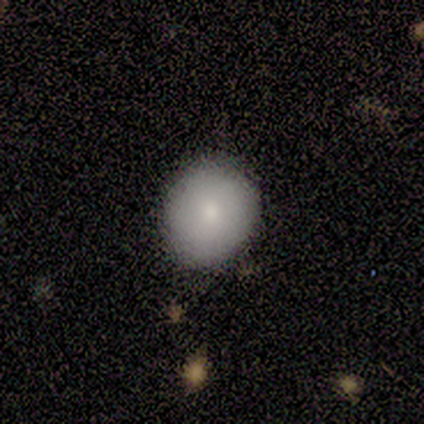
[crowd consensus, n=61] smooth-or-featured: smooth: 75% | featured or disk: 18% | star or artifact: 7%
  how-rounded: round: 83% | in between: 17% | cigar-shaped: 0%
  merging: none: 79% | minor disturbance: 16% | merger: 4% | major disturbance: 2%